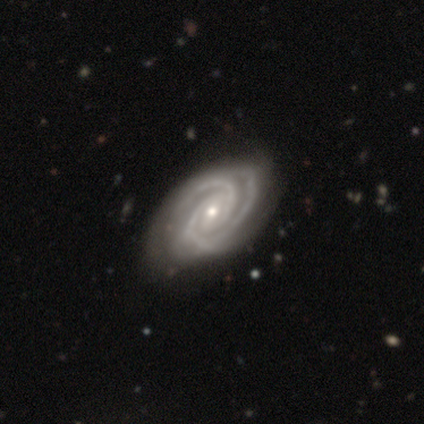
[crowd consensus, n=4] Overall: featured or disk (100%). Edge-on disk: no (100%). Bar: no (75%). Spiral arms: yes (100%). Spiral arm count: 3 (50%; 2 25%). Spiral winding: tight (100%). Bulge size: small (75%). Merging: none (75%).